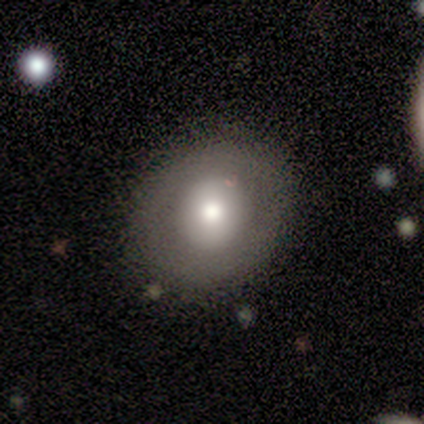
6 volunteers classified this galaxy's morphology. type=smooth (50%, tied with featured or disk); roundness=round (100%); merging=none (83%).